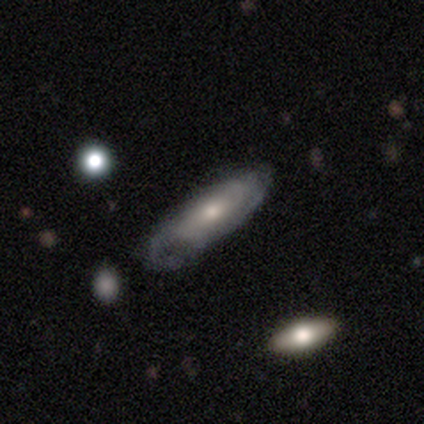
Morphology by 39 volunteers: Q: Smooth or featured?
A: featured or disk (69%); runner-up: smooth (31%)
Q: Edge-on disk?
A: no (74%); runner-up: yes (26%)
Q: Bar?
A: no (60%); runner-up: weak (40%)
Q: Spiral arms?
A: yes (80%); runner-up: no (20%)
Q: Spiral winding?
A: medium (56%); runner-up: tight (31%)
Q: Spiral arm count?
A: can't tell (50%); runner-up: 2 (38%)
Q: Bulge size?
A: moderate (50%); runner-up: small (35%)
Q: Merging?
A: none (64%); runner-up: minor disturbance (28%)